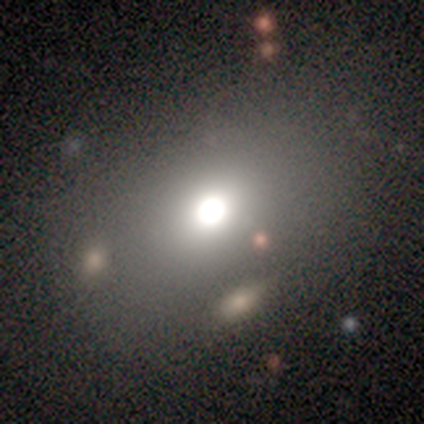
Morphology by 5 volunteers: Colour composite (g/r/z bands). It shows a smooth galaxy with no disk features (80%) that is in between round and cigar-shaped (75%). Merging: none (75%).